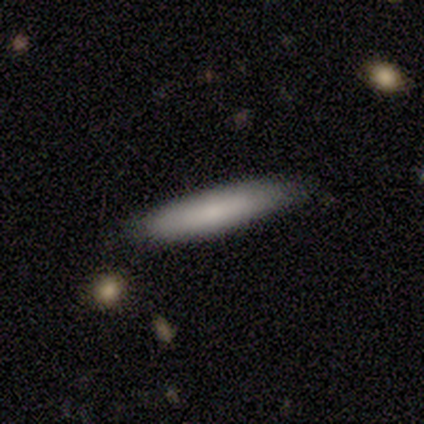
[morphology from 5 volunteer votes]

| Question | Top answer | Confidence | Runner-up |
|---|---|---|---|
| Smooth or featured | smooth | 60% | featured or disk (40%) |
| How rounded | cigar-shaped | 100% | — |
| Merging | none | 60% | minor disturbance (40%) |